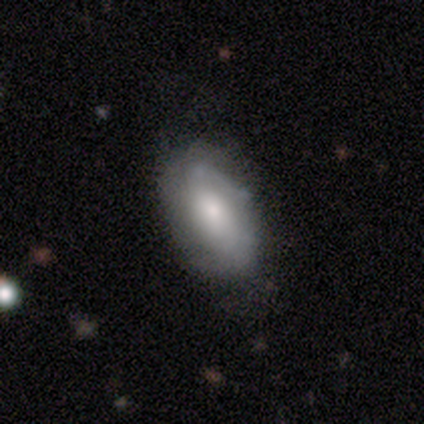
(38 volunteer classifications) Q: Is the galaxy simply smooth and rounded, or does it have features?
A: smooth — 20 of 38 (53%).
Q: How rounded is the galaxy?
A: in between — 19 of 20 (95%).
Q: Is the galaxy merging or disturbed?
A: none — 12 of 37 (32%).